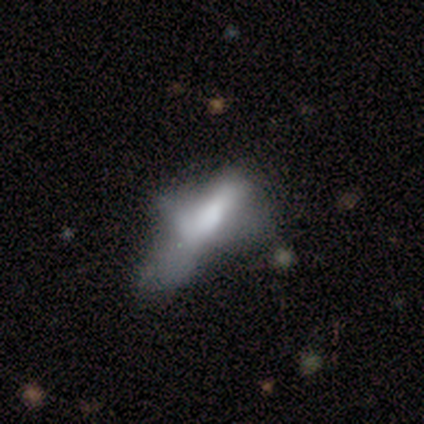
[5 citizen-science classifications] Overall: featured or disk (80%). Edge-on disk: no (75%). Bar: no (100%). Spiral arms: no (100%). Bulge size: large (67%; small 33%). Merging: none (40%, tied with major disturbance).